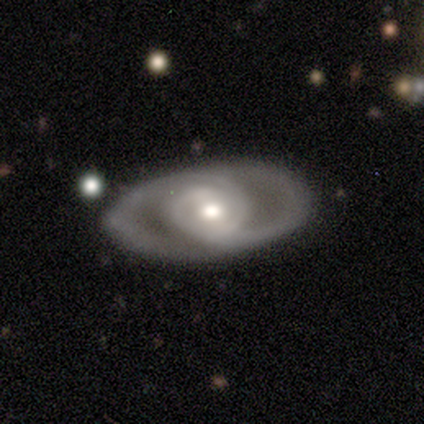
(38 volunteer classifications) Overall: featured or disk (84%). Edge-on disk: no (91%). Bar: weak (45%; no 38%). Spiral arms: yes (90%). Spiral arm count: 2 (85%). Spiral winding: medium (62%; tight 23%). Bulge size: moderate (52%; small 21%). Merging: none (78%).